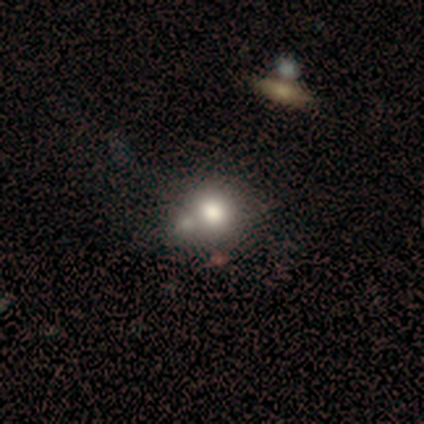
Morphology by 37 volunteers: This appears to be a smooth galaxy with no disk features (57%) that is round (81%). Merging: merger (45%).